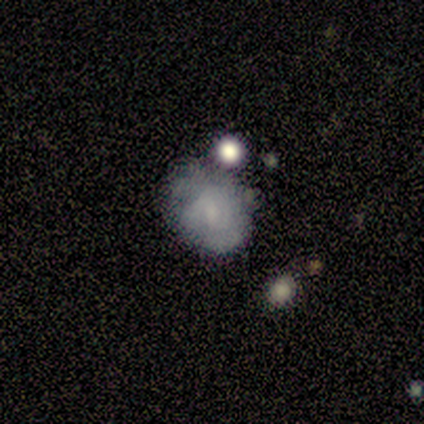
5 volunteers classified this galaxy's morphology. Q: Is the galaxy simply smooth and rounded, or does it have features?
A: featured or disk — 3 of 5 (60%).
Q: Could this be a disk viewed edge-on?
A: no — 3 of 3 (100%).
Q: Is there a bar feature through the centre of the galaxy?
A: no — 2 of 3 (67%).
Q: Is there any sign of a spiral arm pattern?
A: yes — 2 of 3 (67%).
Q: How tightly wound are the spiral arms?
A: medium — 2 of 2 (100%).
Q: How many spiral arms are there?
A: can't tell — 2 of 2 (100%).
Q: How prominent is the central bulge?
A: none — 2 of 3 (67%).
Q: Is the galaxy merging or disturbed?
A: none — 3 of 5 (60%).